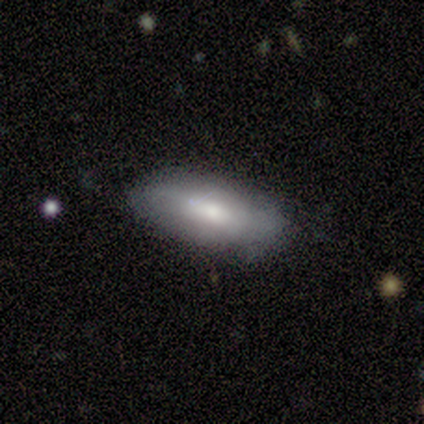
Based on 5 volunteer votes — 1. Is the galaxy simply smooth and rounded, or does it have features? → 80% smooth, 20% star or artifact, 0% featured or disk.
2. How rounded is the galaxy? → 50% in between (tied), 50% cigar-shaped (tied), 0% round.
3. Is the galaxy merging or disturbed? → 50% none (tied), 50% minor disturbance (tied), 0% major disturbance, 0% merger.